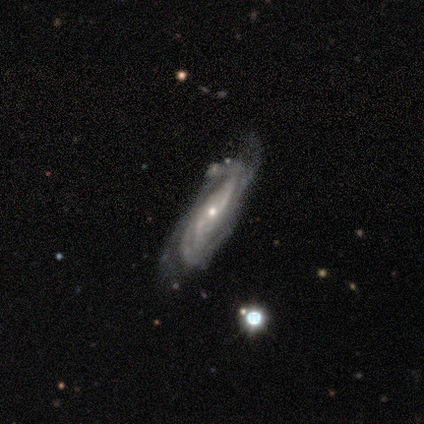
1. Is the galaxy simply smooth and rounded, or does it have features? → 86% featured or disk, 8% smooth, 5% star or artifact.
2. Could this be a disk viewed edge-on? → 84% no, 16% yes.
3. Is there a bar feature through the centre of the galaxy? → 52% no, 33% weak, 15% strong.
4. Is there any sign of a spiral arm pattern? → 96% yes, 4% no.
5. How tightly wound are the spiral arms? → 50% tight, 27% medium, 23% loose.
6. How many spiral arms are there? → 46% can't tell, 31% 2, 15% 3, 8% 4, 0% 1, 0% more than 4.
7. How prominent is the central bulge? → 74% small, 26% moderate, 0% dominant, 0% large, 0% none.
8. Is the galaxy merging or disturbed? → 51% none, 29% minor disturbance, 11% merger, 9% major disturbance.